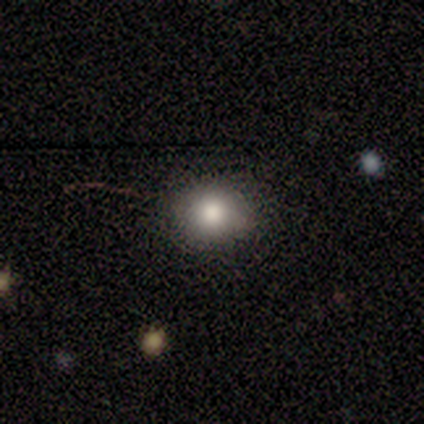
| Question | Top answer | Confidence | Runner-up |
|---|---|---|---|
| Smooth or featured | smooth | 80% | star or artifact (20%) |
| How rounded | round | 100% | — |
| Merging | none | 100% | — |